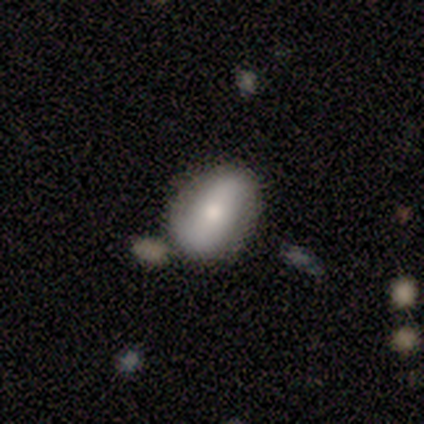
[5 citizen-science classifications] Volunteers were most divided on "smooth or featured": smooth: 60%, featured or disk: 40%, star or artifact: 0%. More confident: how rounded — in between (100%); merging — none (100%).